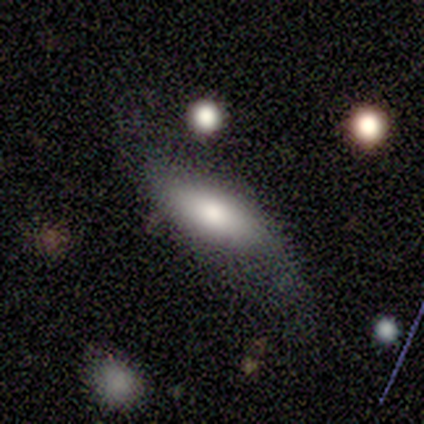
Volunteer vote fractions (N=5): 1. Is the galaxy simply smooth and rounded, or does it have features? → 80% featured or disk, 20% smooth, 0% star or artifact.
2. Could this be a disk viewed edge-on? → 75% no, 25% yes.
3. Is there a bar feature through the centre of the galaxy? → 67% no, 33% weak, 0% strong.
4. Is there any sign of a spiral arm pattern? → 100% no, 0% yes.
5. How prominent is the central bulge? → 33% large (tied), 33% moderate (tied), 33% small (tied), 0% dominant, 0% none.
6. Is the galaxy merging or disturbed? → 80% minor disturbance, 20% none, 0% major disturbance, 0% merger.